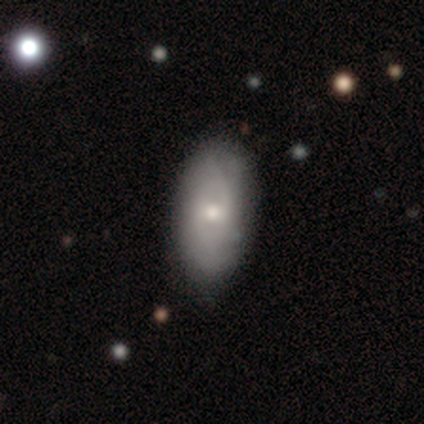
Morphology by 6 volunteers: Smooth or featured? 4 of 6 (67%) said smooth. How rounded? 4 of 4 (100%) said in between. Merging? 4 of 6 (67%) said none.